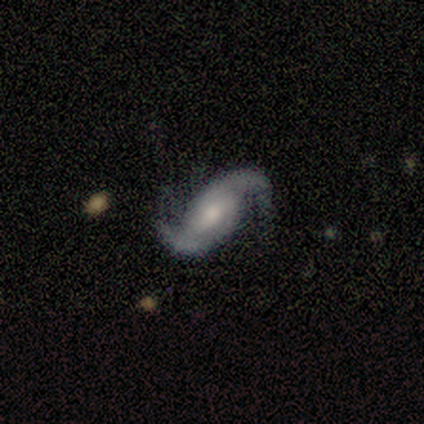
This is clearly a featured or disk galaxy (100%). It is clearly not viewed edge-on (100%). Bar: marginally weak (40%, tied with no). Spiral arm pattern: clearly yes (100%). Spiral arm count: clearly 2 (100%). Spiral winding: likely loose (60%). Central bulge: clearly moderate (80%). Merging: likely none (60%).